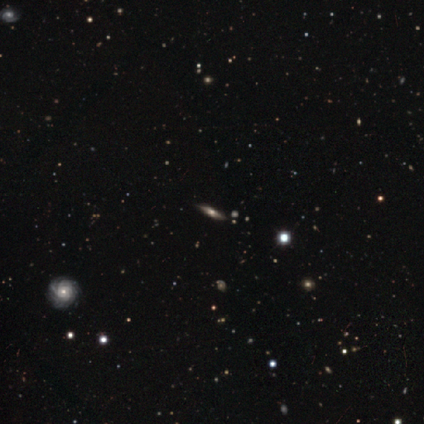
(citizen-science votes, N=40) Volunteers were most divided on "smooth or featured": featured or disk: 52%, smooth: 28%, star or artifact: 20%. More confident: merging — none (94%); edge-on bulge — rounded (93%); edge-on disk — yes (71%).